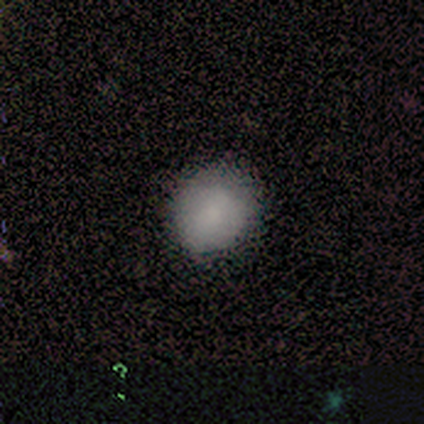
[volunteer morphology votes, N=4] A smooth galaxy with no disk features (75%) that is round (67%).

Vote fractions:
- Smooth or featured? smooth: 75% / featured or disk: 25% / star or artifact: 0%
- How rounded? round: 67% / in between: 33% / cigar-shaped: 0%
- Merging? none: 75% / minor disturbance: 25% / major disturbance: 0% / merger: 0%